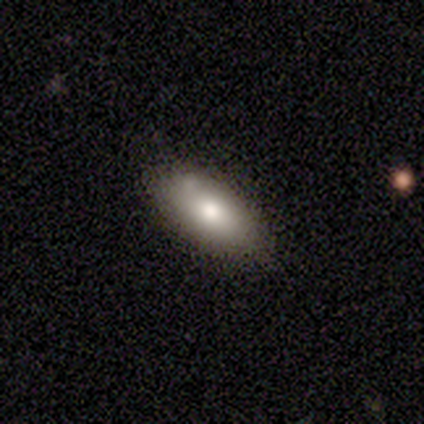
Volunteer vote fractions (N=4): Smooth or featured? 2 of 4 (50%, tied with featured or disk) said smooth. How rounded? 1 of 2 (50%, tied with cigar-shaped) said in between. Merging? 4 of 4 (100%) said none.